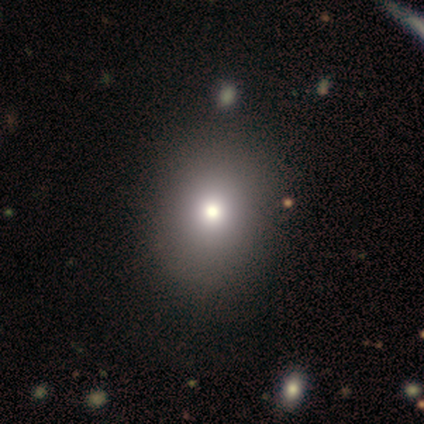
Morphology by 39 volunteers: A smooth galaxy with no disk features (69%) that is round (67%).

Vote fractions:
- Smooth or featured? smooth: 69% / featured or disk: 15% / star or artifact: 15%
- How rounded? round: 67% / in between: 33% / cigar-shaped: 0%
- Merging? none: 76% / minor disturbance: 12% / major disturbance: 6% / merger: 6%